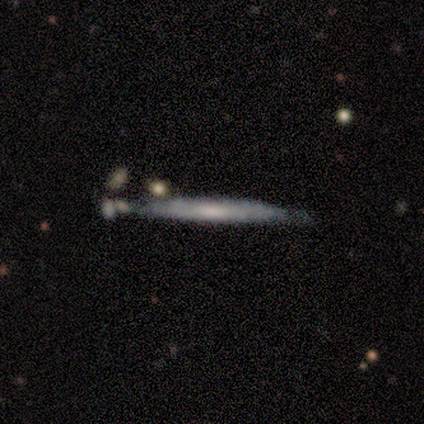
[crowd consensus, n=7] This appears to be a featured or disk galaxy (57%) viewed edge-on (75%) with no central bulge (100%). Merging: minor disturbance (43%).